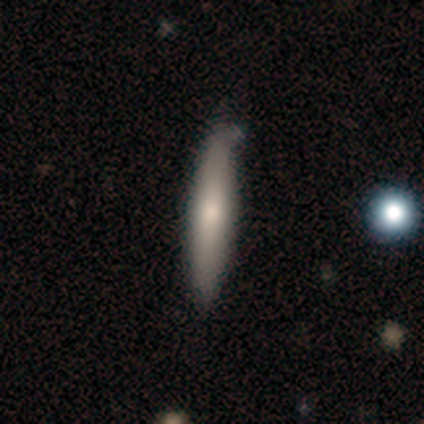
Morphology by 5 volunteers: smooth-or-featured: smooth: 100% | featured or disk: 0% | star or artifact: 0%
  how-rounded: cigar-shaped: 80% | in between: 20% | round: 0%
  merging: none: 100% | minor disturbance: 0% | major disturbance: 0% | merger: 0%